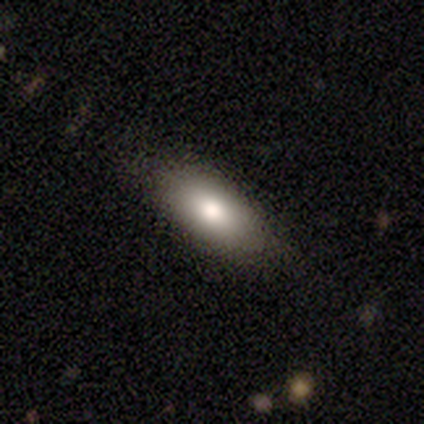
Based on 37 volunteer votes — smooth 78%, featured or disk 16%, star or artifact 5%. Down the decision tree: how rounded — in between (90%); merging — none (74%).